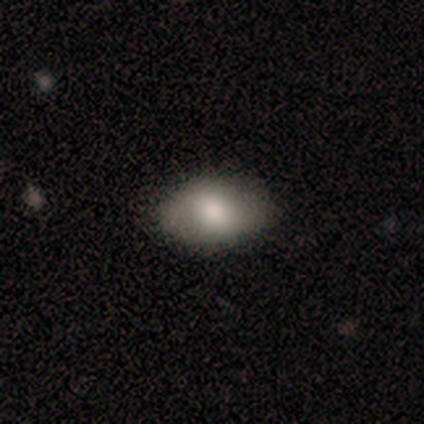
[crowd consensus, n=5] This appears to be a smooth galaxy with no disk features (80%) that is in between round and cigar-shaped (100%). Merging: none (100%).